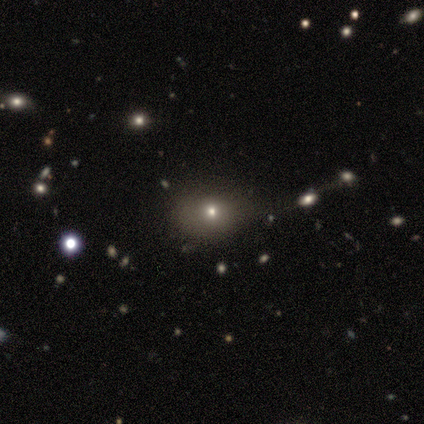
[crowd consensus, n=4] A smooth galaxy with no disk features (50%, tied with featured or disk) that is round (50%, tied with in between).

Vote fractions:
- Smooth or featured? smooth: 50% (tied) / featured or disk: 50% (tied) / star or artifact: 0%
- How rounded? round: 50% (tied) / in between: 50% (tied) / cigar-shaped: 0%
- Merging? minor disturbance: 50% / none: 25% / merger: 25% / major disturbance: 0%